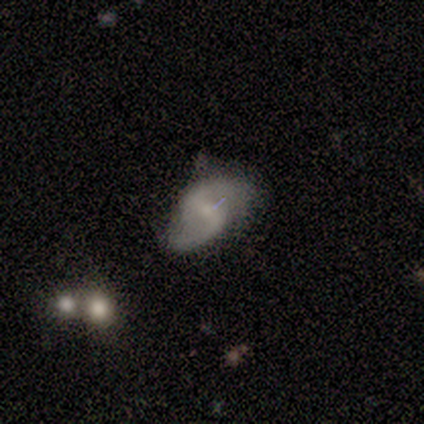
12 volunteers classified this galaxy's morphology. Overall: featured or disk (75%). Edge-on disk: no (89%). Bar: weak (50%; no 38%). Spiral arms: yes (100%). Spiral arm count: 2 (100%). Spiral winding: medium (50%, tied with loose). Bulge size: small (75%). Merging: none (45%; minor disturbance 27%).